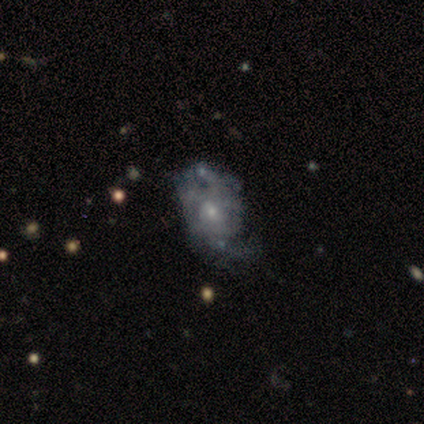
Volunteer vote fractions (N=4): smooth_or_featured: smooth (p=0.50) [alt: featured or disk p=0.25]
how_rounded: round (p=0.50) [tied with: in between p=0.50]
merging: none (p=0.33) [tied with: minor disturbance p=0.33, major disturbance p=0.33]